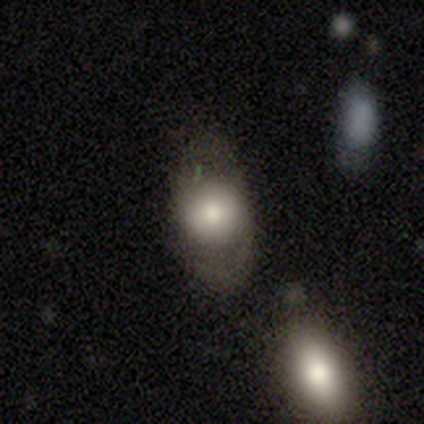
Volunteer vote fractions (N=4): Smooth or featured? 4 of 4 (100%) said smooth. How rounded? 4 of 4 (100%) said in between. Merging? 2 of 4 (50%) said minor disturbance.